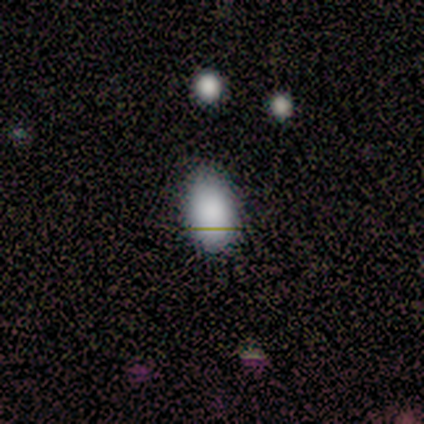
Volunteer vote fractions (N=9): smooth-or-featured: smooth: 89% | star or artifact: 11% | featured or disk: 0%
  how-rounded: in between: 100% | round: 0% | cigar-shaped: 0%
  merging: none: 88% | minor disturbance: 12% | major disturbance: 0% | merger: 0%